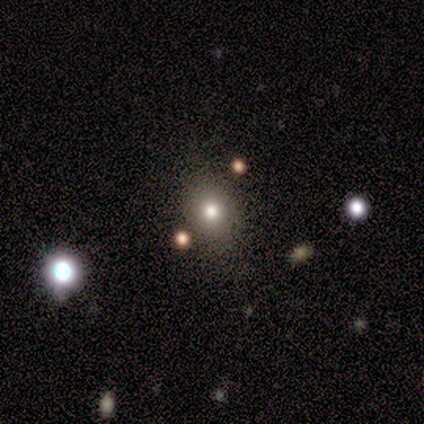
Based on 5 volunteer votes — smooth_or_featured: smooth (p=0.60) [alt: star or artifact p=0.40]
how_rounded: round (p=1.00)
merging: minor disturbance (p=0.67) [alt: none p=0.33]